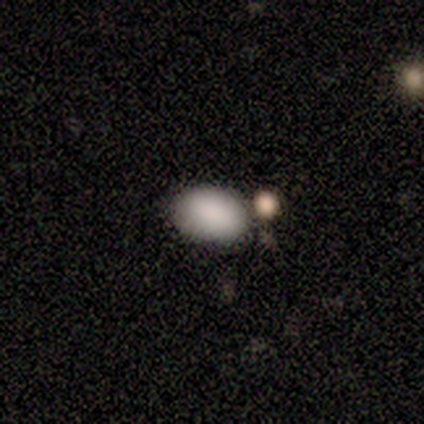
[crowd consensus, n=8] Morphology: type=smooth (88%); roundness=in between (100%); merging=none (62%).